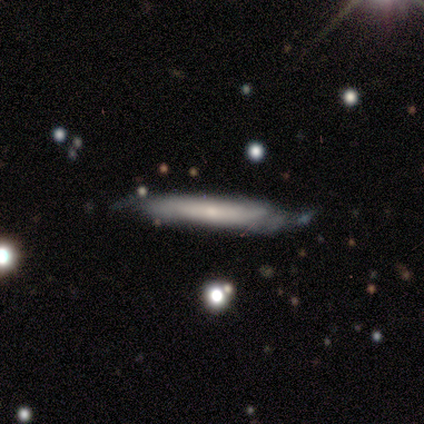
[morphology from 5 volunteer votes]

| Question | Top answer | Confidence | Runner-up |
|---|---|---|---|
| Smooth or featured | smooth | 60% | featured or disk (40%) |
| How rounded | cigar-shaped | 100% | — |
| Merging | none | 60% | minor disturbance (40%) |